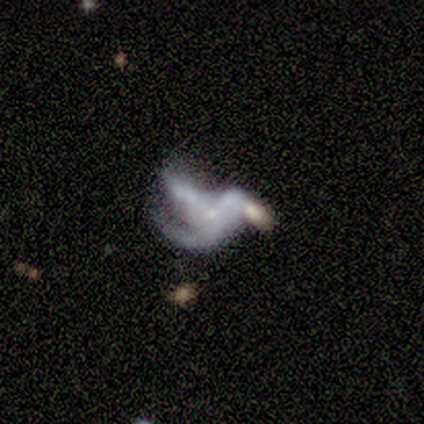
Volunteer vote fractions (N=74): This is clearly a featured or disk galaxy (81%). It is clearly not viewed edge-on (98%). Bar: clearly no (86%). Spiral arm pattern: likely yes (68%). Spiral arm count: likely 3 (68%). Spiral winding: possibly loose (55%). Central bulge: possibly small (59%). Merging: marginally major disturbance (42%).